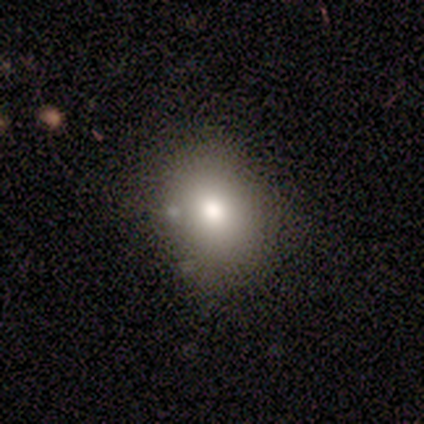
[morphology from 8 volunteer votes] Q: Smooth or featured?
A: smooth (75%); runner-up: featured or disk (12%)
Q: How rounded?
A: in between (83%); runner-up: round (17%)
Q: Merging?
A: none (71%); runner-up: minor disturbance (14%)